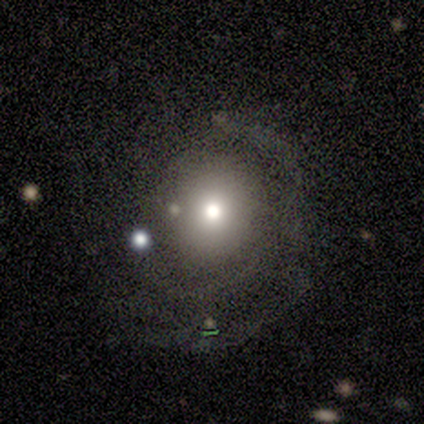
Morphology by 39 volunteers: smooth_or_featured: featured or disk (p=0.46) [alt: smooth p=0.33]
disk_edge_on: no (p=0.94) [alt: yes p=0.06]
bar: no (p=0.82) [alt: strong p=0.12]
has_spiral_arms: no (p=0.59) [alt: yes p=0.41]
bulge_size: moderate (p=0.59) [alt: small p=0.24]
merging: none (p=0.58) [alt: major disturbance p=0.23]